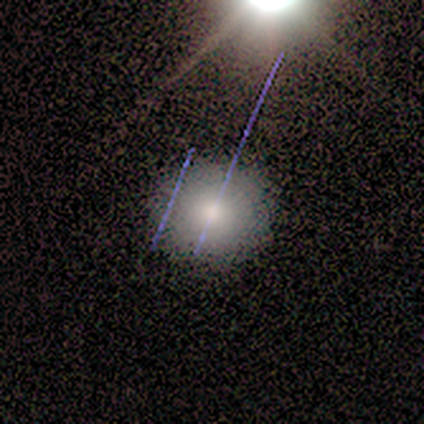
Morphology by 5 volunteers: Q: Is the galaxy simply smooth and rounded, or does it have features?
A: smooth — 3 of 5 (60%).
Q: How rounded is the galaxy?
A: round — 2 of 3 (67%).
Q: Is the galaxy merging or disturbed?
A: none — 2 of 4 (50%).